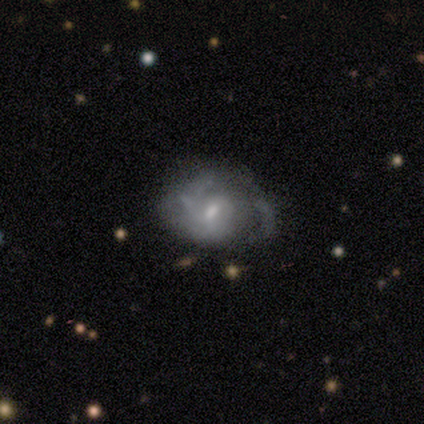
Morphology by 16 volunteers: Smooth or featured? 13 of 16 (81%) said featured or disk. Edge-on disk? 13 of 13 (100%) said no. Bar? 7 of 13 (54%) said weak. Spiral arms? 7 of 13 (54%) said no. Bulge size? 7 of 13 (54%) said moderate. Merging? 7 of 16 (44%) said major disturbance.